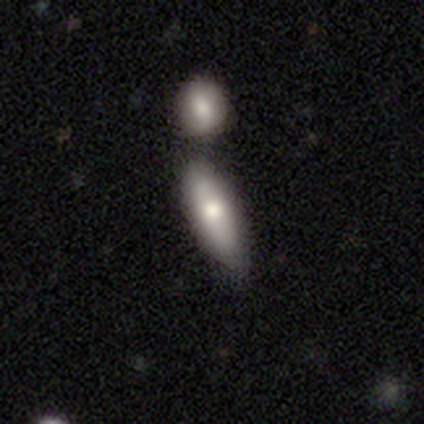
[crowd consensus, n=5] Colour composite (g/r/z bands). It shows a smooth galaxy with no disk features (80%) that is in between round and cigar-shaped (100%). Merging: none (60%).